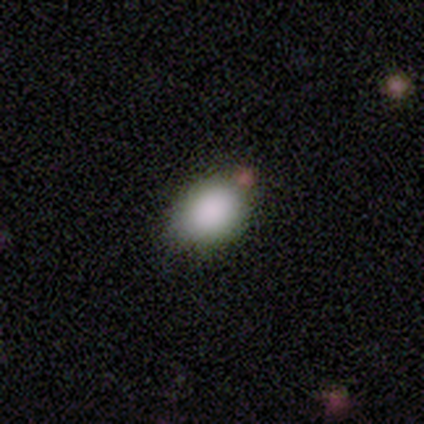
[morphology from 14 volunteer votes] Volunteers were most divided on "how rounded": in between: 75%, round: 25%, cigar-shaped: 0%. More confident: smooth or featured — smooth (86%); merging — none (85%).